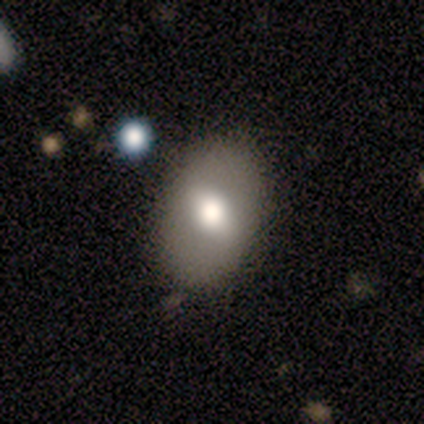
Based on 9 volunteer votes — Volunteers were most divided on "smooth or featured": smooth: 78%, featured or disk: 22%, star or artifact: 0%. More confident: how rounded — in between (100%); merging — none (89%).